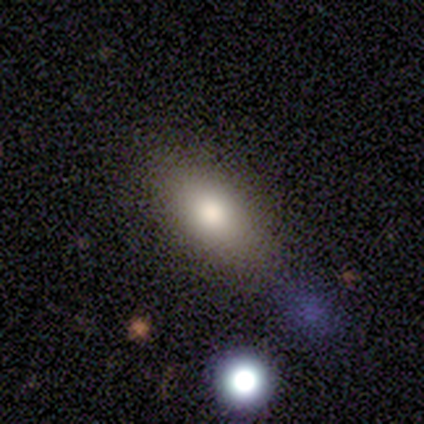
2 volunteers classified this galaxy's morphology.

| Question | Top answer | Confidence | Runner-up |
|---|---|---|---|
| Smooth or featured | smooth | 50% | tied: star or artifact (50%) |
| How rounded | in between | 100% | — |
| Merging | none | 100% | — |